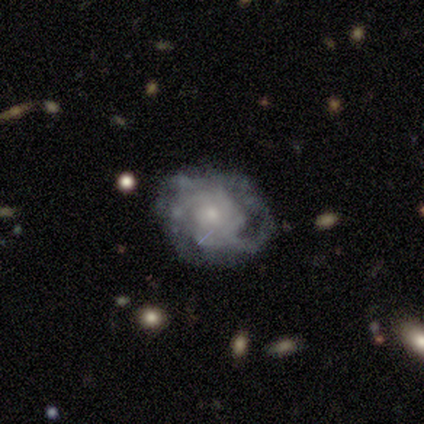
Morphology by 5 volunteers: This appears to be a featured or disk galaxy (80%) with no bar (50%), 4 (50%, tied with can't tell) tight (50%, tied with medium) spiral arms (50%, tied with no) and a small central bulge (100%). Merging: major disturbance (50%).